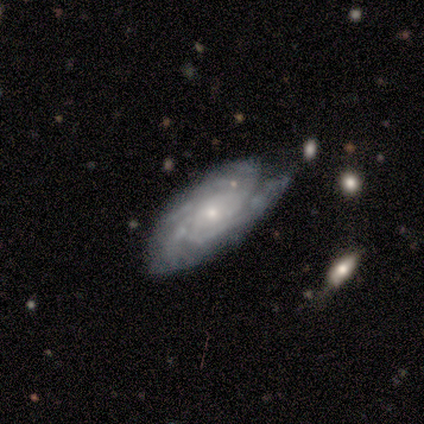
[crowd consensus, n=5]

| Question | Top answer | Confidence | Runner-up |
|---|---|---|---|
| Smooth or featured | featured or disk | 100% | — |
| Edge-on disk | no | 60% | yes (40%) |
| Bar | no | 67% | weak (33%) |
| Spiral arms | yes | 67% | no (33%) |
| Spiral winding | medium | 50% | tied: loose (50%) |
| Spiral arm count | can't tell | 100% | — |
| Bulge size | moderate | 33% | tied: small (33%), none (33%) |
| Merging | none | 40% | tied: minor disturbance (40%) |